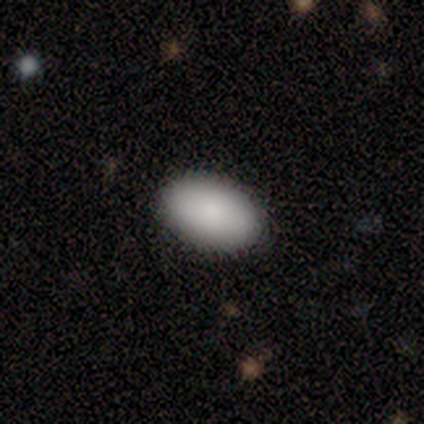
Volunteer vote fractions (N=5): smooth-or-featured: smooth: 100% | featured or disk: 0% | star or artifact: 0%
  how-rounded: in between: 100% | round: 0% | cigar-shaped: 0%
  merging: none: 80% | major disturbance: 20% | minor disturbance: 0% | merger: 0%